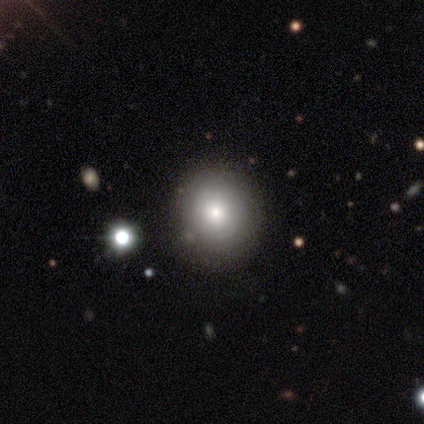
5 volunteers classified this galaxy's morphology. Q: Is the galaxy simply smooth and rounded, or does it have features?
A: featured or disk — 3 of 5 (60%).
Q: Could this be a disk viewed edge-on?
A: no — 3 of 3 (100%).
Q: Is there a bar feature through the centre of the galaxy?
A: no — 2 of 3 (67%).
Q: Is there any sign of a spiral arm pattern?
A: no — 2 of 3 (67%).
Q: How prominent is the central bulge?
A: small — 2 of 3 (67%).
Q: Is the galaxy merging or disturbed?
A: none — 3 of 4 (75%).